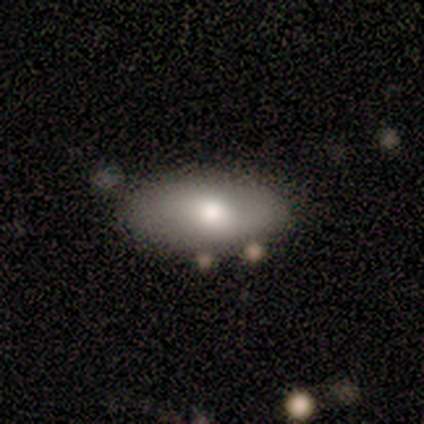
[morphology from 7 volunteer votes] A smooth galaxy with no disk features (57%) that is in between round and cigar-shaped (100%). Merging: none (83%).